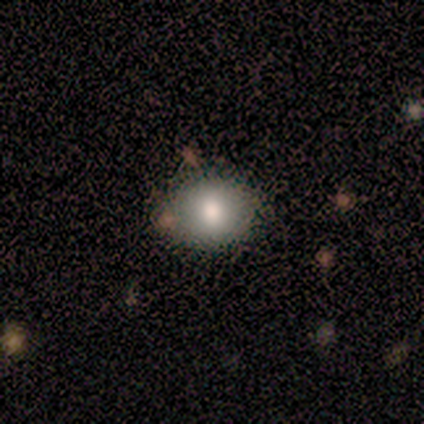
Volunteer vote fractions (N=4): Overall: smooth (75%). How rounded: in between (67%; round 33%). Merging: none (67%; merger 33%).